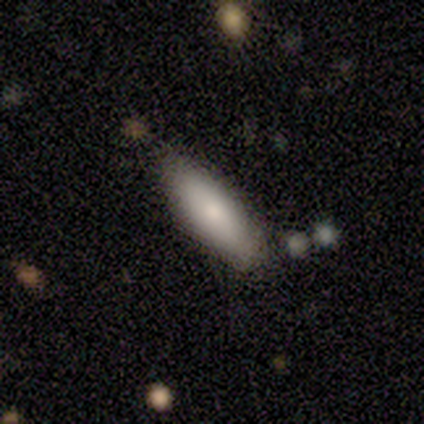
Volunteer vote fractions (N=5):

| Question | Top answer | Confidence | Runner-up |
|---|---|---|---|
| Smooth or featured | smooth | 100% | — |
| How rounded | cigar-shaped | 60% | in between (40%) |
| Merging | none | 80% | minor disturbance (20%) |